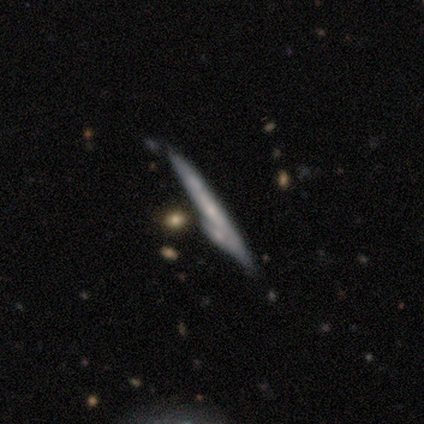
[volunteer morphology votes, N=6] This is possibly a smooth galaxy (50%, tied with featured or disk). How rounded: clearly cigar-shaped (100%). Merging: marginally none (33%, tied with minor disturbance and merger).